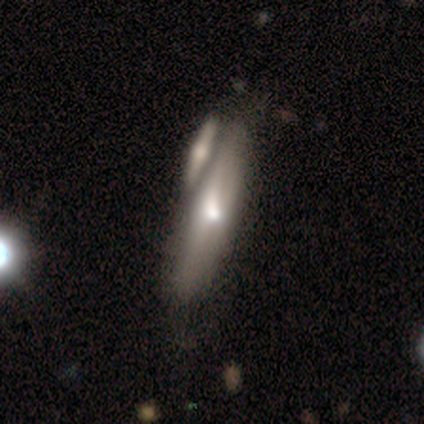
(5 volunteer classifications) Morphology: type=featured or disk (60%); edge-on=yes (100%); edge-on bulge=rounded (100%); merging=merger (60%).